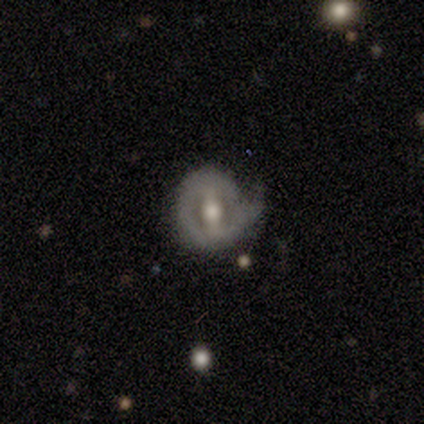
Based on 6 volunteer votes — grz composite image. It shows a featured or disk galaxy (100%) with a strong bar (83%), no spiral arms (83%) and a small central bulge (50%). Merging: minor disturbance (50%).